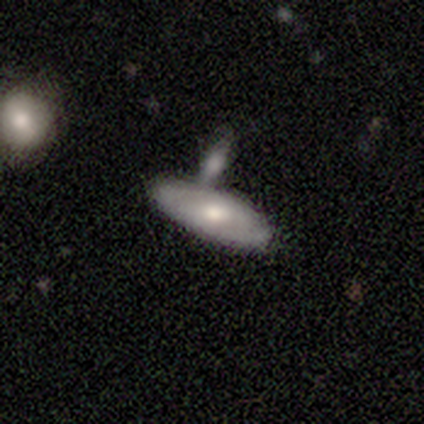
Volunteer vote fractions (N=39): This is possibly a smooth galaxy (54%). How rounded: clearly in between (86%). Merging: possibly none (54%).